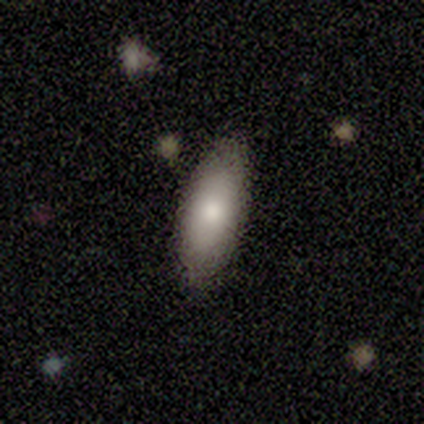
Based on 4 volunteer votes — This is clearly a smooth galaxy (100%). How rounded: likely in between (75%). Merging: likely none (75%).